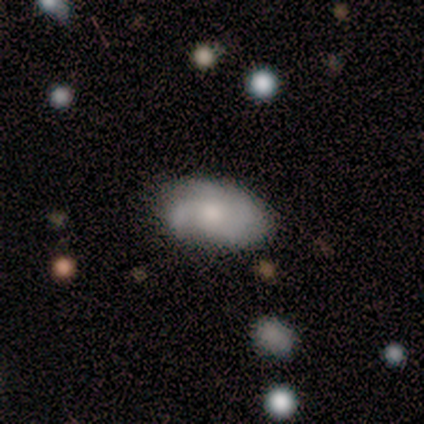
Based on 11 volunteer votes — Q: Smooth or featured?
A: featured or disk (55%); runner-up: smooth (45%)
Q: Edge-on disk?
A: no (83%); runner-up: yes (17%)
Q: Bar?
A: no (100%)
Q: Spiral arms?
A: no (80%); runner-up: yes (20%)
Q: Bulge size?
A: small (80%); runner-up: dominant (20%)
Q: Merging?
A: none (55%); runner-up: minor disturbance (36%)